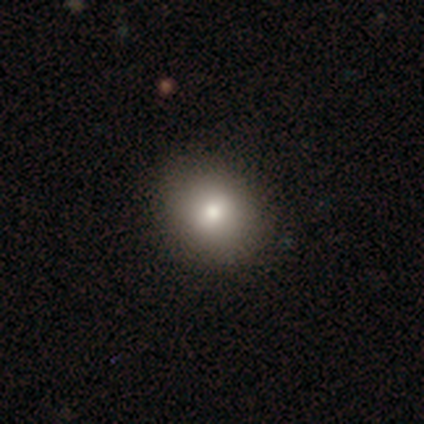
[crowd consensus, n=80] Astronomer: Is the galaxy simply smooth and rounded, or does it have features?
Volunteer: smooth — 76%.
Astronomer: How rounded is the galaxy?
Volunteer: round — 66%.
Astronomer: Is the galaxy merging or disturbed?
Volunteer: none — 37%.